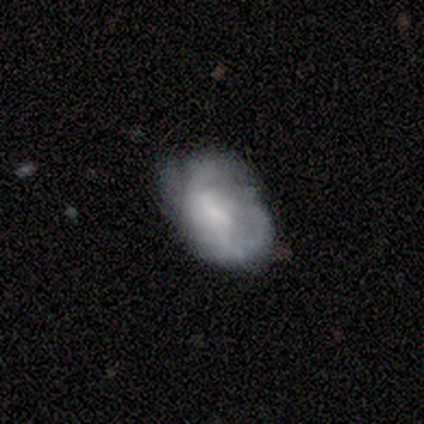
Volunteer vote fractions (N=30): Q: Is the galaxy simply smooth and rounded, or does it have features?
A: featured or disk — 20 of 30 (67%).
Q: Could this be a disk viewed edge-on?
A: no — 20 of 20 (100%).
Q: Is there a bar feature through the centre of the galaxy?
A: weak — 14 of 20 (70%).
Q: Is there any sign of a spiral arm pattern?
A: yes — 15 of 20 (75%).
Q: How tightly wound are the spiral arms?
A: medium — 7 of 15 (47%).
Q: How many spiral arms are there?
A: can't tell — 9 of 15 (60%).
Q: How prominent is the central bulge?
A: small — 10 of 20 (50%).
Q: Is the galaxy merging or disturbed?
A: none — 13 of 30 (43%).